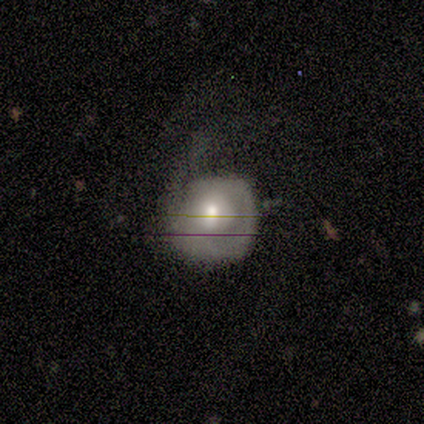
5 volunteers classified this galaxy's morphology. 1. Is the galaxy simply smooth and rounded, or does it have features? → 40% featured or disk (tied), 40% star or artifact (tied), 20% smooth.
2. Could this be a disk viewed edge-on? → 50% yes (tied), 50% no (tied).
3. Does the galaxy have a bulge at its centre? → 100% rounded, 0% boxy, 0% none.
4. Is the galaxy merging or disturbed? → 33% none (tied), 33% minor disturbance (tied), 33% major disturbance (tied), 0% merger.